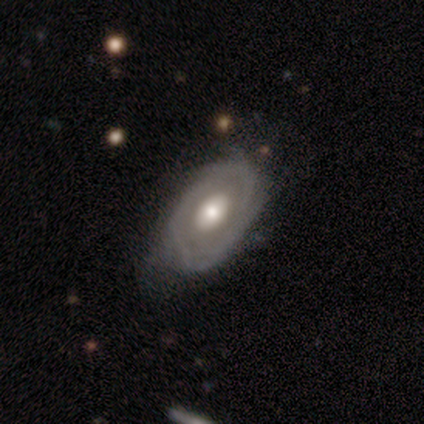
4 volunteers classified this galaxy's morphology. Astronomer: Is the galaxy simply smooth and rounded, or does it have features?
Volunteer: featured or disk — 75%.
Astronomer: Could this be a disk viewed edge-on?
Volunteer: no — 67%.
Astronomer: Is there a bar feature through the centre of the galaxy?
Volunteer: no — 100%.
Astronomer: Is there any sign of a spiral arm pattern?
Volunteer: yes — 100%.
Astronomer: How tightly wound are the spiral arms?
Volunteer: tight — 100%.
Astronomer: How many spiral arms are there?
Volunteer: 4 — 50%, tied with can't tell at 50%.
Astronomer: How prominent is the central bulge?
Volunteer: large — 100%.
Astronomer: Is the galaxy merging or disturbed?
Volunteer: none — 75%.